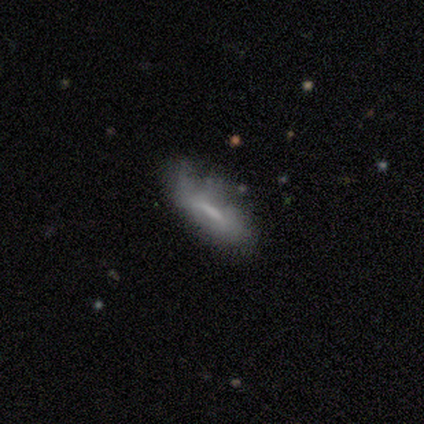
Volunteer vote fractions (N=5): Q: Smooth or featured?
A: featured or disk (60%); runner-up: smooth (20%)
Q: Edge-on disk?
A: no (100%)
Q: Bar?
A: strong (33%); tied with: weak (33%); no (33%)
Q: Spiral arms?
A: no (67%); runner-up: yes (33%)
Q: Bulge size?
A: none (67%); runner-up: small (33%)
Q: Merging?
A: minor disturbance (50%); runner-up: none (25%)